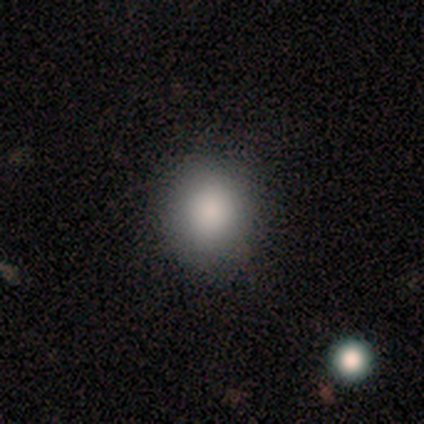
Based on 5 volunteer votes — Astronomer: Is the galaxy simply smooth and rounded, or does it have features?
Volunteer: smooth — 100%.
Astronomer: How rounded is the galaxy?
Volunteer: round — 100%.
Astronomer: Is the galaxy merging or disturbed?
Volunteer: none — 100%.